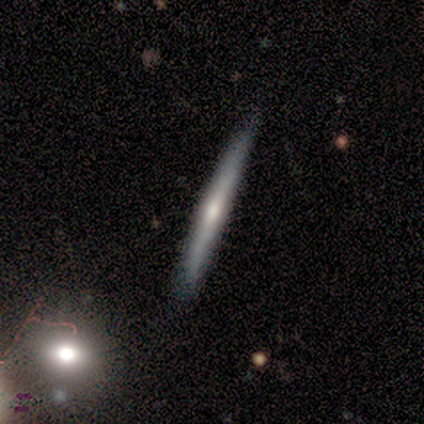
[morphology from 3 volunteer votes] Smooth or featured: featured or disk — 67% (smooth — 33%)
Edge-on disk: yes — 100%
Edge-on bulge: none — 50% (tied with rounded — 50%)
Merging: none — 100%